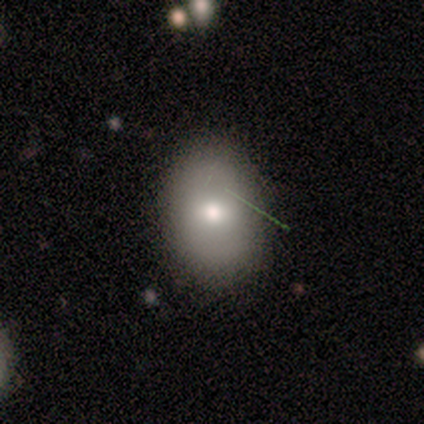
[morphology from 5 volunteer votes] This appears to be a smooth galaxy with no disk features (80%) that is round (50%, tied with in between). Merging: none (80%).